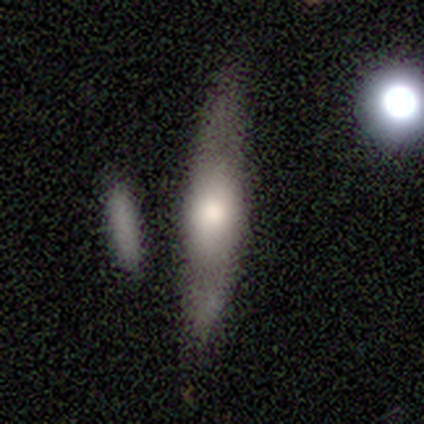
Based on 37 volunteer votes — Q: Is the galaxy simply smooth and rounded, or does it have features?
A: smooth — 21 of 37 (57%).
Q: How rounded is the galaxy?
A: cigar-shaped — 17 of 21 (81%).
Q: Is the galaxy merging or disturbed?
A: none — 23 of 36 (64%).